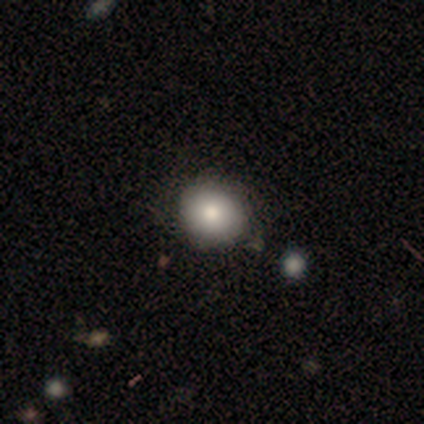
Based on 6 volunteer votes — This is likely a smooth galaxy (67%). How rounded: clearly round (100%). Merging: likely none (67%).